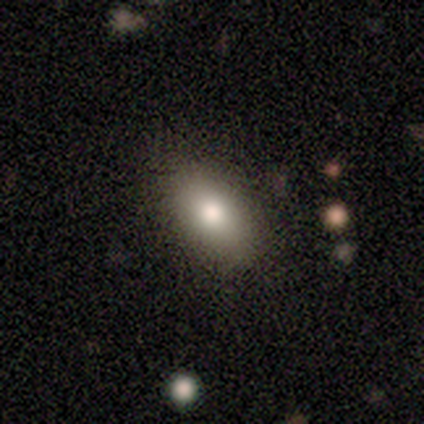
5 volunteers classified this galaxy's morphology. Q: Smooth or featured?
A: smooth (100%)
Q: How rounded?
A: in between (100%)
Q: Merging?
A: none (100%)